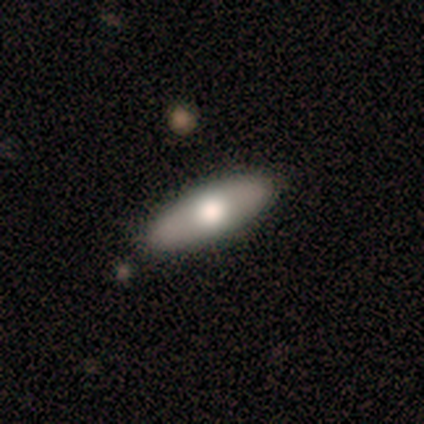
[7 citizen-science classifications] Morphology: type=smooth (57%); roundness=in between (50%, tied with cigar-shaped); merging=none (100%).